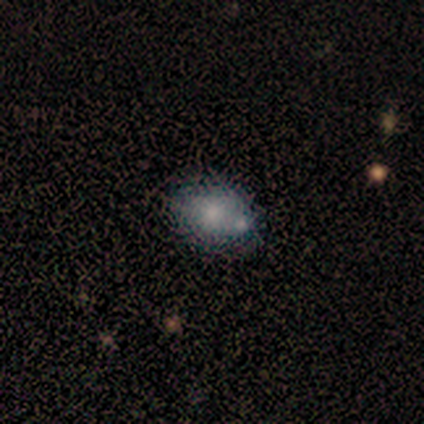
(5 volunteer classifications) Smooth or featured? featured or disk (80%)
Edge-on disk? no (75%)
Bar? no (100%)
Spiral arms? no (100%)
Bulge size? moderate (67%)
Merging? none (80%)